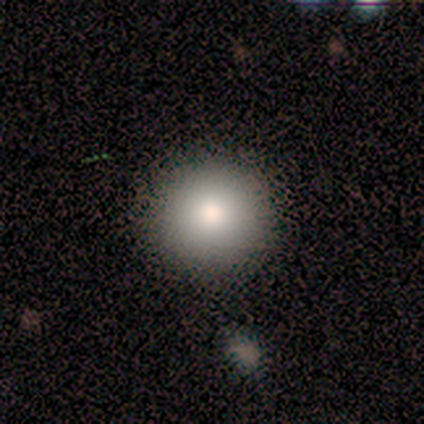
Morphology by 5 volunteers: This appears to be a smooth galaxy with no disk features (100%) that is round (100%). Merging: none (100%).